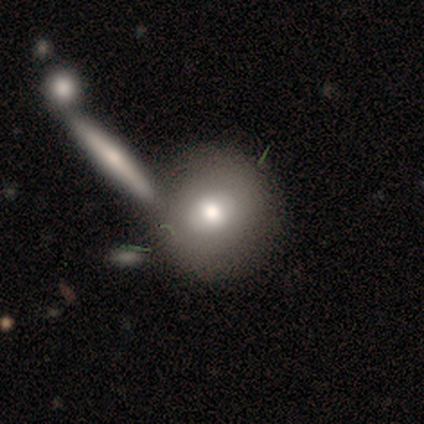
smooth_or_featured: smooth (p=0.72) [alt: featured or disk p=0.20]
how_rounded: round (p=0.93) [alt: in between p=0.03]
merging: none (p=0.68) [alt: merger p=0.24]